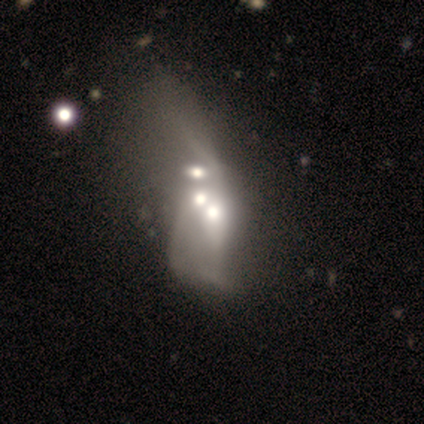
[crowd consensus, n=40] Morphology: type=featured or disk (50%); edge-on=no (90%); bar=no (100%); spiral arms=no (89%); bulge=moderate (56%); merging=merger (51%).